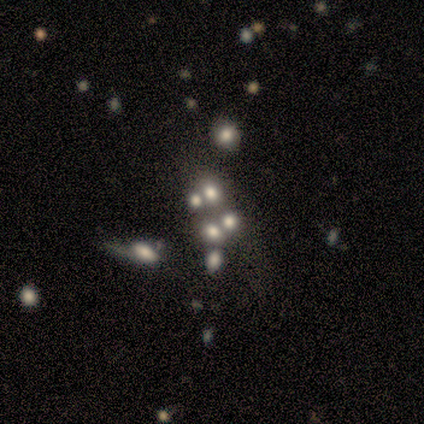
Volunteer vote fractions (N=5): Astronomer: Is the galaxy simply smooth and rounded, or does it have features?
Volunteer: smooth — 40%, tied with star or artifact at 40%.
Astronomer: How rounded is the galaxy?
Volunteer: round — 100%.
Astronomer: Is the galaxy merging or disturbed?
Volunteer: merger — 100%.